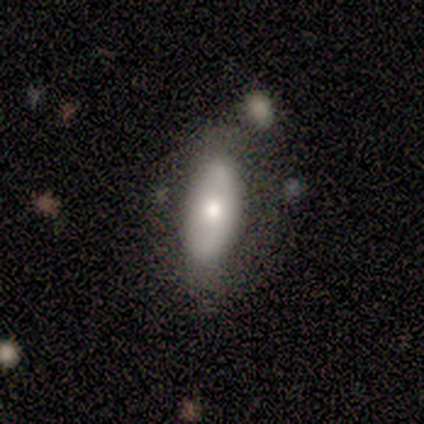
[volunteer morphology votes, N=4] Smooth or featured? smooth (75%)
How rounded? in between (67%)
Merging? none (100%)